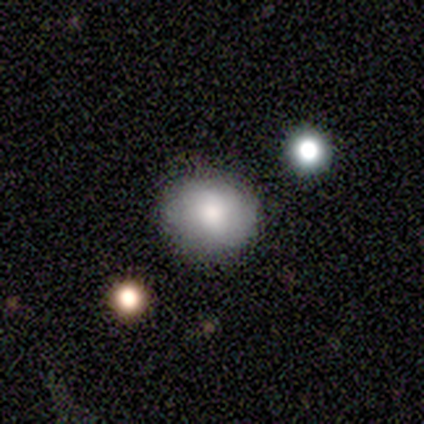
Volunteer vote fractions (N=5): smooth 40% (tied), featured or disk 40% (tied), star or artifact 20%. Down the decision tree: how rounded — round (100%); merging — none (50%, tied with minor disturbance).